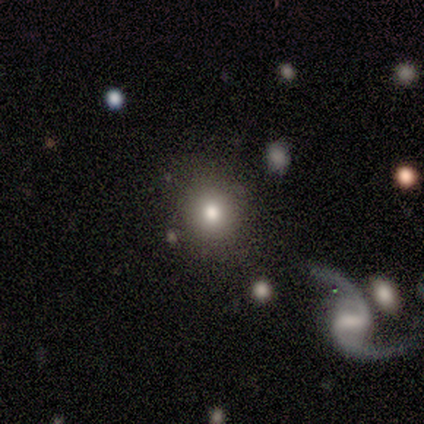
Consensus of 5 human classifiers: smooth-or-featured: smooth: 100% | featured or disk: 0% | star or artifact: 0%
  how-rounded: round: 80% | in between: 20% | cigar-shaped: 0%
  merging: none: 60% | minor disturbance: 40% | major disturbance: 0% | merger: 0%